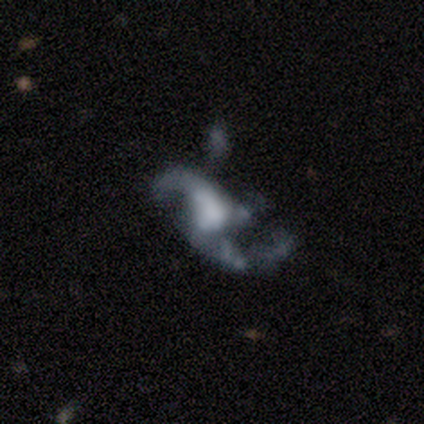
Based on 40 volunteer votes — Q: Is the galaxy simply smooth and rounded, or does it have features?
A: featured or disk — 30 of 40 (75%).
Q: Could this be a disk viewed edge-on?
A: no — 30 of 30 (100%).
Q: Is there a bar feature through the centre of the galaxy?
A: no — 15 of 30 (50%).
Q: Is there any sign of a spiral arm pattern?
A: yes — 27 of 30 (90%).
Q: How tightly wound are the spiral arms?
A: loose — 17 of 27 (63%).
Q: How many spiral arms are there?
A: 2 — 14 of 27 (52%).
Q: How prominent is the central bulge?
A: large — 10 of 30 (33%).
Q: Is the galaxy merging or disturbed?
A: major disturbance — 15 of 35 (43%).